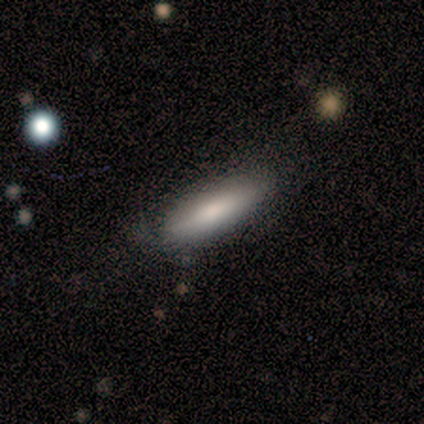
smooth_or_featured: smooth (p=1.00)
how_rounded: cigar-shaped (p=1.00)
merging: none (p=1.00)